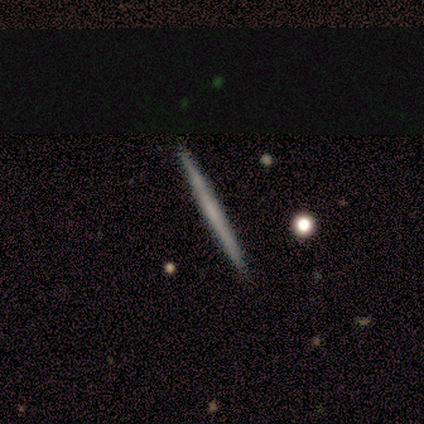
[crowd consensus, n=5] Smooth or featured? 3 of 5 (60%) said featured or disk. Edge-on disk? 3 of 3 (100%) said yes. Edge-on bulge? 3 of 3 (100%) said none. Merging? 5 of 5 (100%) said none.